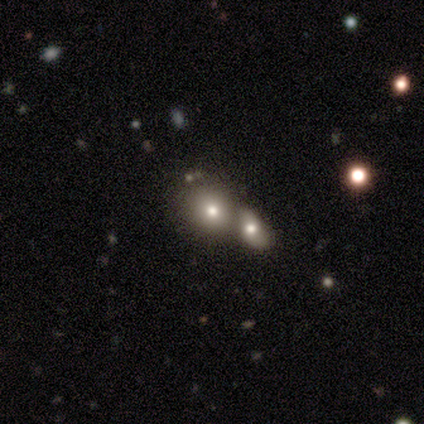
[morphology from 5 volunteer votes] smooth 60%, featured or disk 20%, star or artifact 20%. Down the decision tree: how rounded — in between (67%); merging — none (50%, tied with merger).